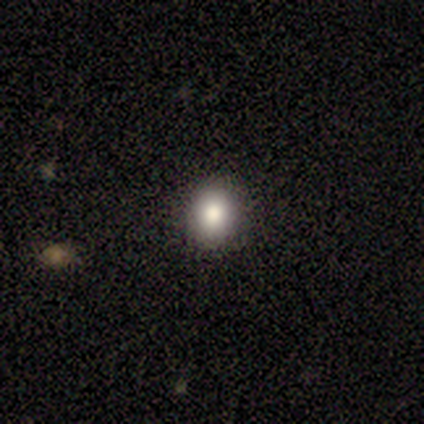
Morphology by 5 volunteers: Q: Smooth or featured?
A: smooth (100%)
Q: How rounded?
A: in between (60%); runner-up: round (40%)
Q: Merging?
A: none (100%)